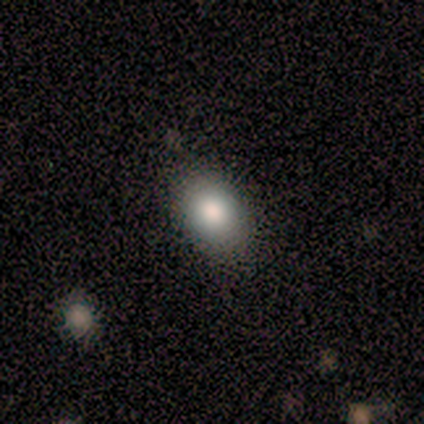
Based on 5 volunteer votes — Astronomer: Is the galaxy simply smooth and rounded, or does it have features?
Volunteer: smooth — 60%.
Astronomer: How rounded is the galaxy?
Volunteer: in between — 67%.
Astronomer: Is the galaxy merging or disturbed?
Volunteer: none — 75%.